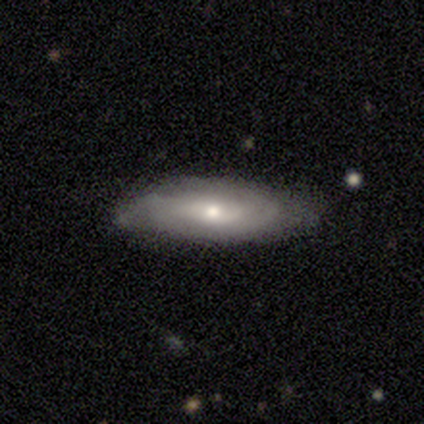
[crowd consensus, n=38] Smooth or featured? 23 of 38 (61%) said featured or disk. Edge-on disk? 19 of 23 (83%) said no. Bar? 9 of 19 (47%) said no. Spiral arms? 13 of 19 (68%) said yes. Spiral winding? 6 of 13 (46%) said medium. Spiral arm count? 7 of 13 (54%) said can't tell. Bulge size? 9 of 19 (47%) said moderate. Merging? 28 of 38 (74%) said none.